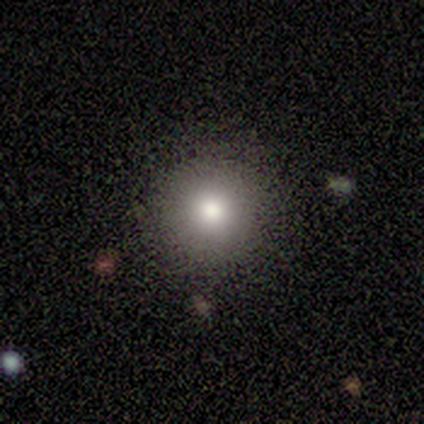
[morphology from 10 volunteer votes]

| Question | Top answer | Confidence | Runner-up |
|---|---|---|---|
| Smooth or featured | smooth | 80% | star or artifact (20%) |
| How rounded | round | 100% | — |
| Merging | none | 100% | — |